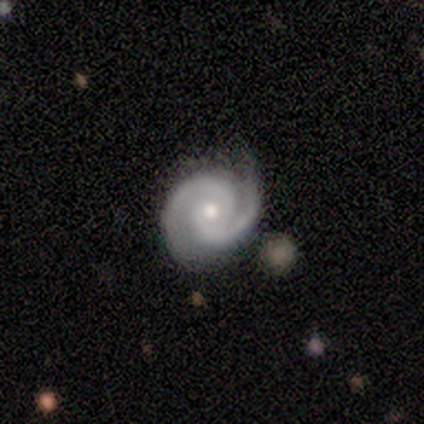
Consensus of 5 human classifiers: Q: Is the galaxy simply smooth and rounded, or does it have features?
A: featured or disk — 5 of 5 (100%).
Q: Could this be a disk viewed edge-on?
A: no — 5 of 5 (100%).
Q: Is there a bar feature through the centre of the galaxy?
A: no — 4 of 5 (80%).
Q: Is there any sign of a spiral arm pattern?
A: yes — 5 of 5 (100%).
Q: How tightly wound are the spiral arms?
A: medium — 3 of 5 (60%).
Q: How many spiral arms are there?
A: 2 — 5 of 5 (100%).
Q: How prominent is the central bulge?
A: small — 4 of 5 (80%).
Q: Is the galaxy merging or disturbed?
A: none — 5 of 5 (100%).